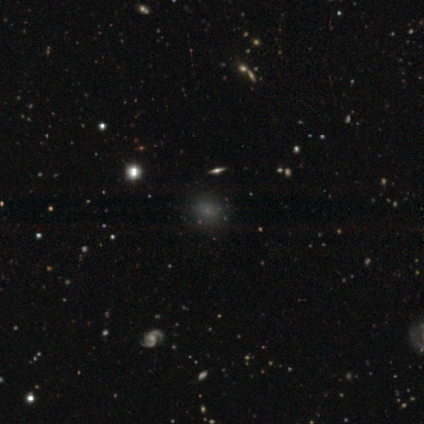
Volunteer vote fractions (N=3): smooth_or_featured: smooth (p=0.67) [alt: star or artifact p=0.33]
how_rounded: round (p=1.00)
merging: none (p=1.00)